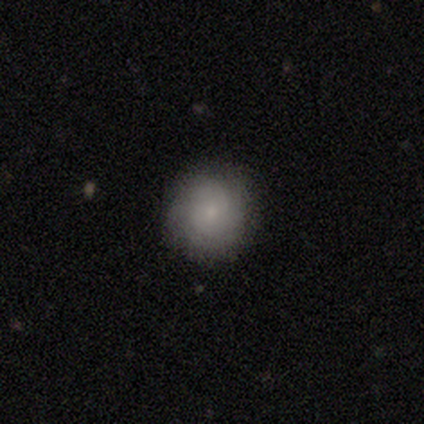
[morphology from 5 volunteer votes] smooth-or-featured: smooth: 100% | featured or disk: 0% | star or artifact: 0%
  how-rounded: round: 100% | in between: 0% | cigar-shaped: 0%
  merging: none: 100% | minor disturbance: 0% | major disturbance: 0% | merger: 0%